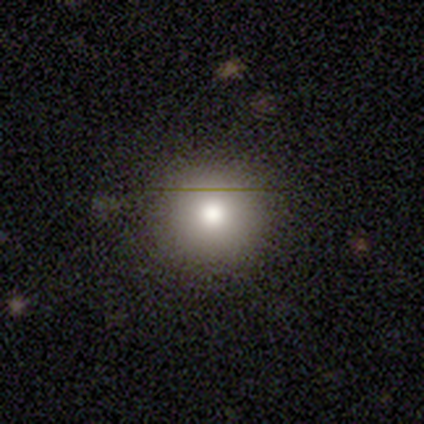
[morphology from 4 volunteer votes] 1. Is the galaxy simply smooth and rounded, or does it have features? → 100% smooth, 0% featured or disk, 0% star or artifact.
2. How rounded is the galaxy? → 100% round, 0% in between, 0% cigar-shaped.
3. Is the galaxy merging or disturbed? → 75% none, 25% minor disturbance, 0% major disturbance, 0% merger.